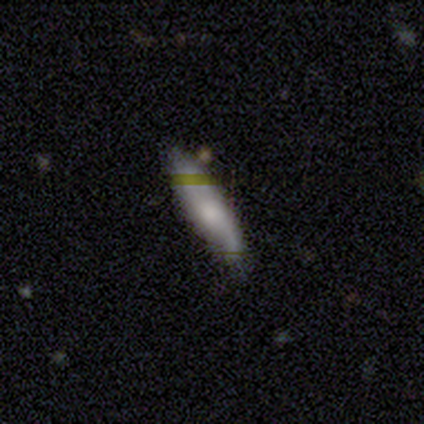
smooth-or-featured: smooth: 60% | star or artifact: 40% | featured or disk: 0%
  how-rounded: cigar-shaped: 100% | round: 0% | in between: 0%
  merging: none: 67% | minor disturbance: 33% | major disturbance: 0% | merger: 0%